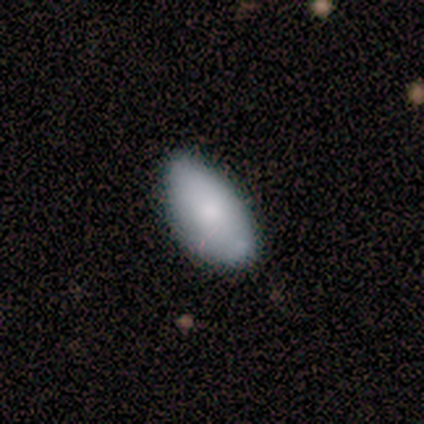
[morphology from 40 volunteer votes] Overall: smooth (85%). How rounded: in between (100%). Merging: none (74%).